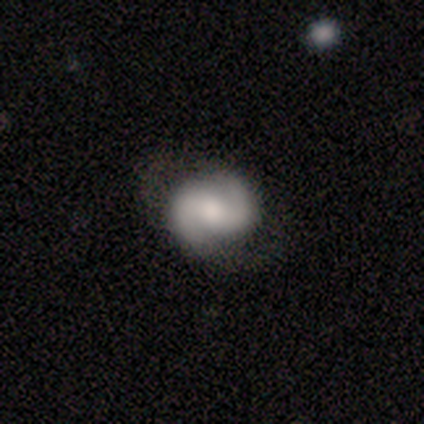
This is likely a featured or disk galaxy (77%). It is clearly not viewed edge-on (99%). Bar: marginally weak (44%). Spiral arm pattern: clearly yes (98%). Spiral arm count: clearly 2 (98%). Spiral winding: possibly medium (55%). Central bulge: possibly moderate (55%). Merging: likely none (69%).